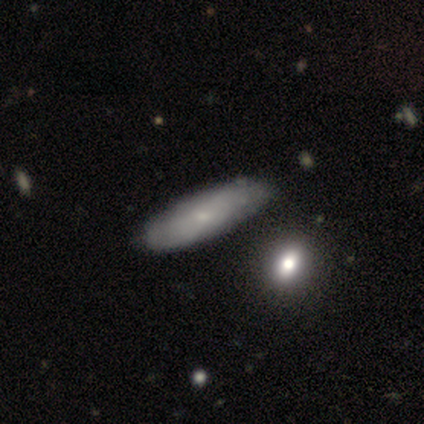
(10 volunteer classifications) This appears to be a smooth galaxy with no disk features (80%) that is in between round and cigar-shaped (75%). Merging: none (100%).